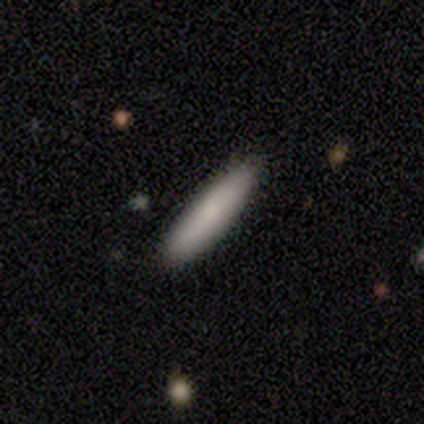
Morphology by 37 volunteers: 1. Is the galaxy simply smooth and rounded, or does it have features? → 78% smooth, 16% featured or disk, 5% star or artifact.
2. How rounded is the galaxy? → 93% cigar-shaped, 7% in between, 0% round.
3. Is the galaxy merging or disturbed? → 86% none, 11% minor disturbance, 3% merger, 0% major disturbance.